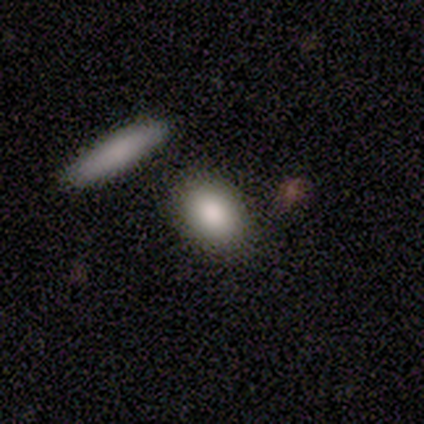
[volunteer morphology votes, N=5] Smooth or featured: smooth — 100%
How rounded: in between — 100%
Merging: none — 100%